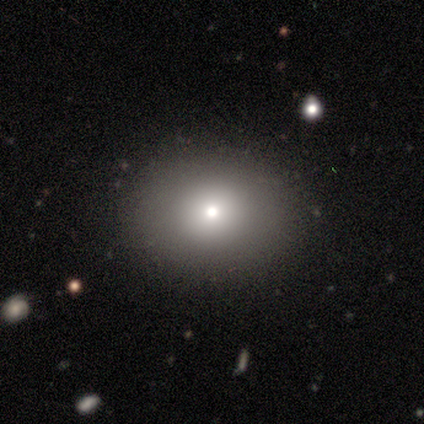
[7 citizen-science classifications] Overall: smooth (86%). How rounded: round (50%, tied with in between). Merging: none (83%).